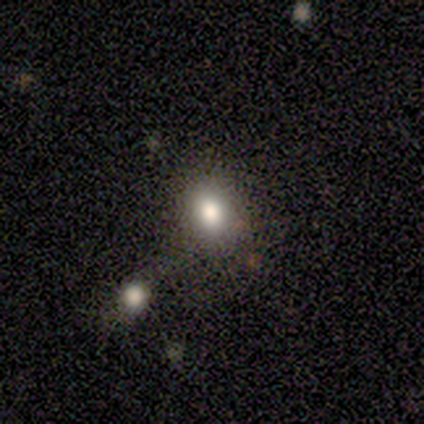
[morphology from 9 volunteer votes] Q: Smooth or featured?
A: smooth (89%); runner-up: star or artifact (11%)
Q: How rounded?
A: in between (88%); runner-up: round (12%)
Q: Merging?
A: none (62%); runner-up: minor disturbance (25%)